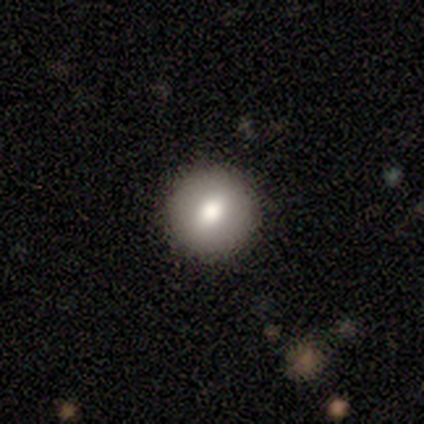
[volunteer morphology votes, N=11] This appears to be a smooth galaxy with no disk features (64%) that is round (71%). Merging: none (100%).